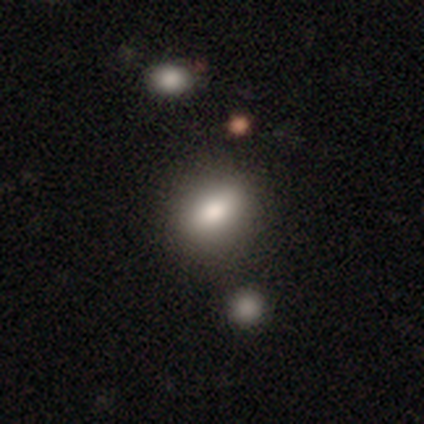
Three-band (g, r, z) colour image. It shows a smooth galaxy with no disk features (82%) that is in between round and cigar-shaped (84%). Merging: none (74%).